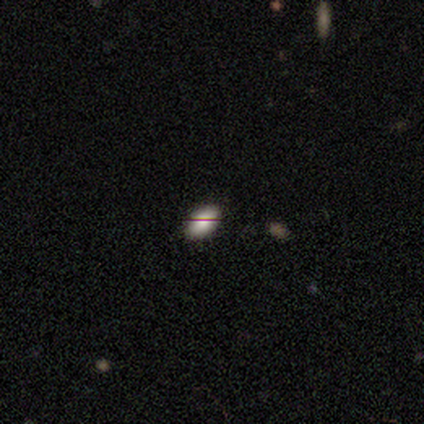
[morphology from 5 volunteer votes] Volunteers were most divided on "smooth or featured": smooth: 60%, star or artifact: 40%, featured or disk: 0%. More confident: merging — none (100%); how rounded — in between (67%).